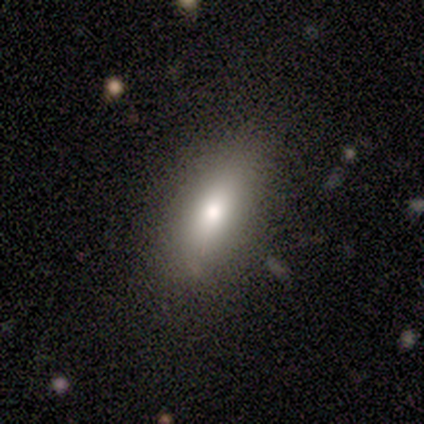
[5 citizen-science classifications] smooth-or-featured: smooth: 80% | featured or disk: 20% | star or artifact: 0%
  how-rounded: in between: 100% | round: 0% | cigar-shaped: 0%
  merging: none: 100% | minor disturbance: 0% | major disturbance: 0% | merger: 0%